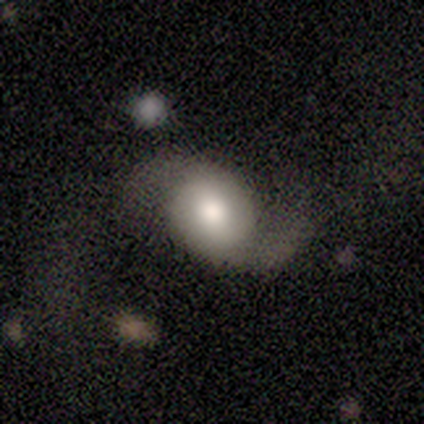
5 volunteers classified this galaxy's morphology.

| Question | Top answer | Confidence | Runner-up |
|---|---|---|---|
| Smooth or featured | featured or disk | 60% | smooth (40%) |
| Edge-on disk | no | 100% | — |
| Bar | no | 67% | weak (33%) |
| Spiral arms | yes | 100% | — |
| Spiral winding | loose | 100% | — |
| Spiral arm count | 2 | 67% | 1 (33%) |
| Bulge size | large | 67% | moderate (33%) |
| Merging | none | 80% | minor disturbance (20%) |